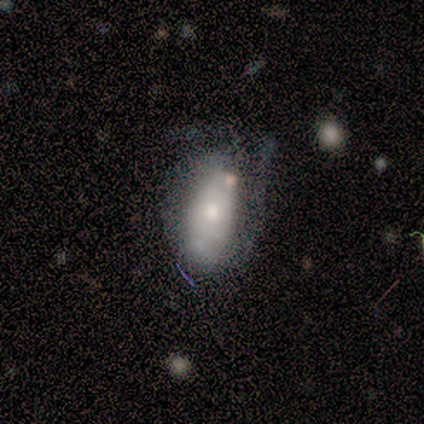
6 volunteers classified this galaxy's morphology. Smooth or featured? 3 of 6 (50%, tied with featured or disk) said smooth. How rounded? 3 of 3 (100%) said in between. Merging? 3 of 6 (50%, tied with minor disturbance) said none.